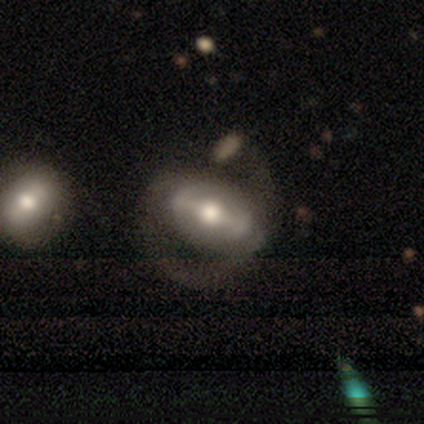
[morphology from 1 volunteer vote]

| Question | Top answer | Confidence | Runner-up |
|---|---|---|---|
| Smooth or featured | featured or disk | 100% | — |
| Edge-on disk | no | 100% | — |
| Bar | strong | 100% | — |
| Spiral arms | yes | 100% | — |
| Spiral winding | loose | 100% | — |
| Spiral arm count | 2 | 100% | — |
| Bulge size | moderate | 100% | — |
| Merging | major disturbance | 100% | — |